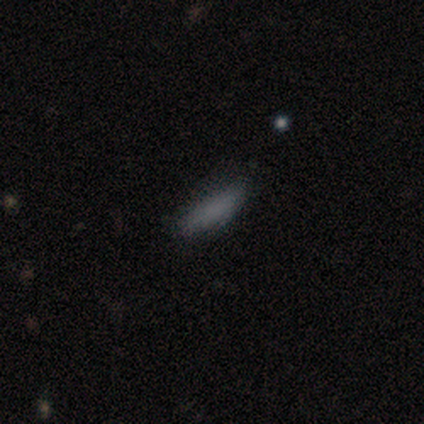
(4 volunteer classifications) Smooth or featured? smooth (75%)
How rounded? cigar-shaped (100%)
Merging? none (50%)